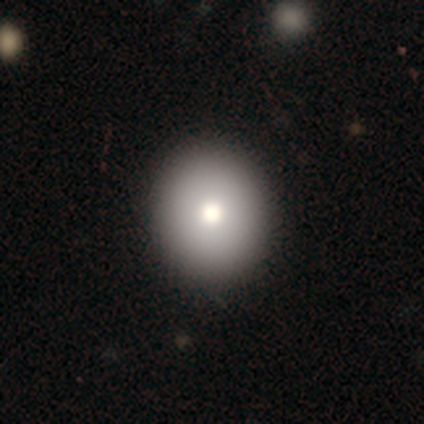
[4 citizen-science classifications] Smooth or featured?
  - smooth: 100% *
  - featured or disk: 0%
  - star or artifact: 0%
How rounded?
  - round: 100% *
  - in between: 0%
  - cigar-shaped: 0%
Merging?
  - none: 100% *
  - minor disturbance: 0%
  - major disturbance: 0%
  - merger: 0%